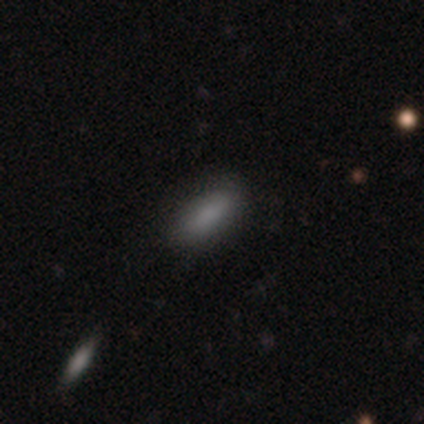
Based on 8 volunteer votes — Q: Smooth or featured?
A: smooth (62%); runner-up: star or artifact (25%)
Q: How rounded?
A: cigar-shaped (60%); runner-up: in between (40%)
Q: Merging?
A: none (67%); runner-up: minor disturbance (33%)